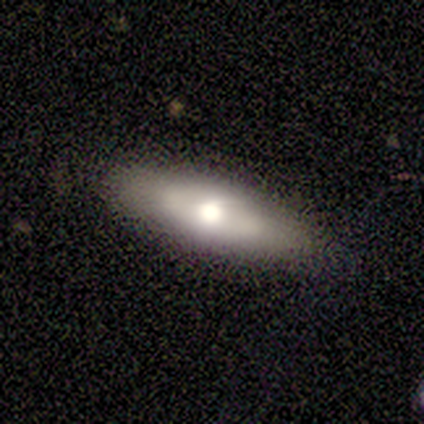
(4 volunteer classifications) Smooth or featured: smooth — 50% (tied with featured or disk — 50%)
How rounded: in between — 100%
Merging: none — 100%